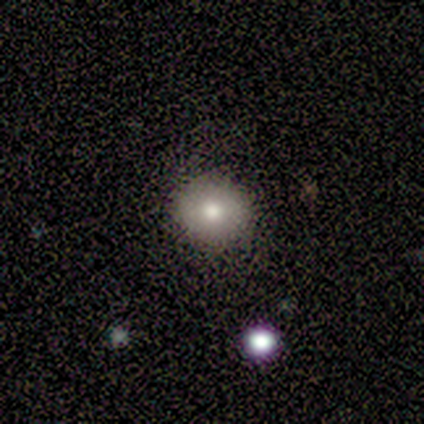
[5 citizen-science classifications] Volunteers were most divided on "smooth or featured": smooth: 80%, featured or disk: 20%, star or artifact: 0%. More confident: how rounded — round (100%); merging — none (100%).